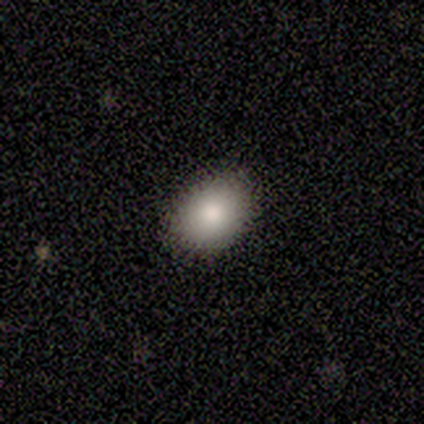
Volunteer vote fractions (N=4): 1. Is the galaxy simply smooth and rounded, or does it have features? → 100% smooth, 0% featured or disk, 0% star or artifact.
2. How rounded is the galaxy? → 50% round (tied), 50% in between (tied), 0% cigar-shaped.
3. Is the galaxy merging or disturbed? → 75% none, 25% minor disturbance, 0% major disturbance, 0% merger.